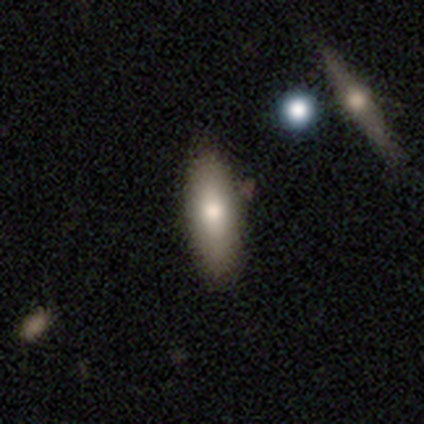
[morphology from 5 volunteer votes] Volunteers were most divided on "merging": none: 60%, minor disturbance: 20%, major disturbance: 20%, merger: 0%. More confident: smooth or featured — smooth (80%); how rounded — in between (75%).